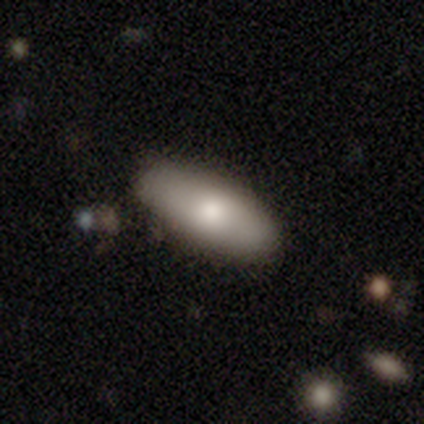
smooth 50%, featured or disk 33%, star or artifact 17%. Down the decision tree: how rounded — in between (100%); merging — none (100%).